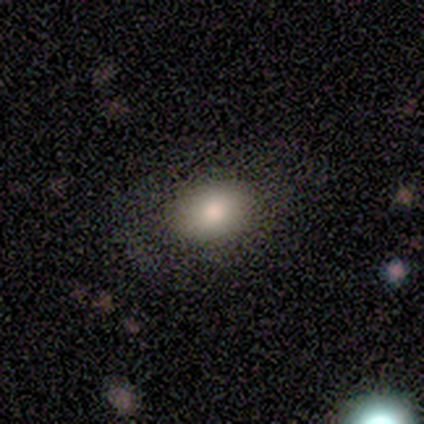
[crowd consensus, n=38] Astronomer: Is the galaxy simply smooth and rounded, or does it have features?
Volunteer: smooth — 87%.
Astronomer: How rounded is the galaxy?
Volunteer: in between — 70%.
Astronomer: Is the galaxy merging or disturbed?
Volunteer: none — 59%.